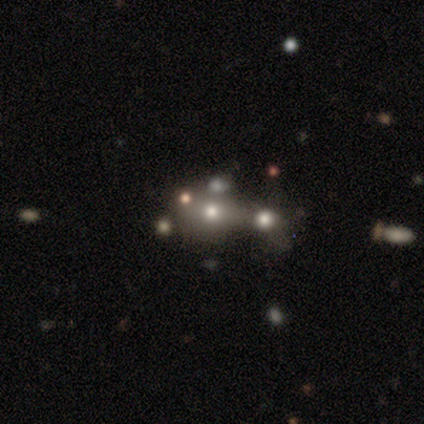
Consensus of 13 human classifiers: Smooth or featured: smooth — 62% (featured or disk — 31%)
How rounded: in between — 62% (round — 38%)
Merging: merger — 50% (none — 33%)